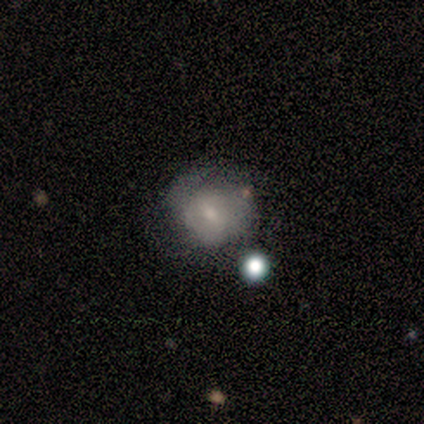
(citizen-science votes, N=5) Morphology: type=smooth (40%, tied with featured or disk); roundness=round (100%); merging=minor disturbance (50%).